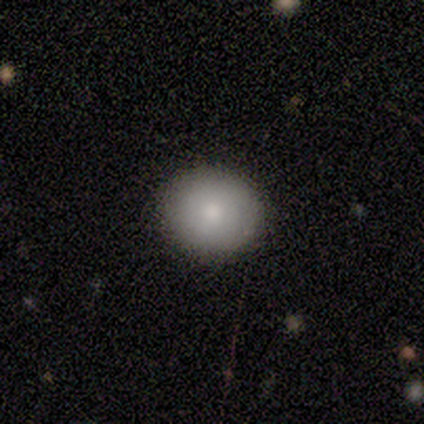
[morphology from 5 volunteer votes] A smooth galaxy with no disk features (100%) that is round (100%). Merging: none (100%).